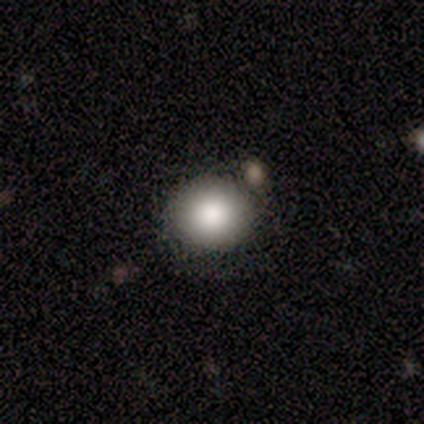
Volunteers were most divided on "how rounded": round: 75%, in between: 25%, cigar-shaped: 0%. More confident: merging — none (100%); smooth or featured — smooth (80%).